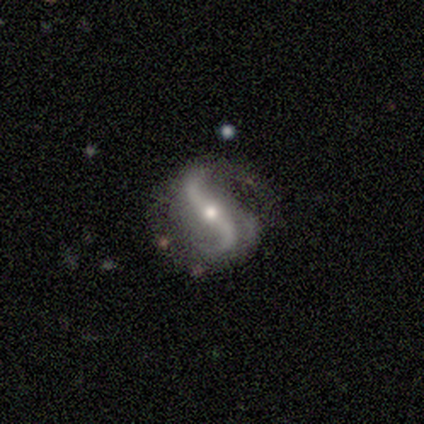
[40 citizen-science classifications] featured or disk 92%, star or artifact 5%, smooth 2%. Down the decision tree: edge-on disk — no (100%); bar — strong (38%); spiral arms — yes (97%); spiral arm count — 2 (83%); spiral winding — loose (78%); bulge size — moderate (46%); merging — none (66%).